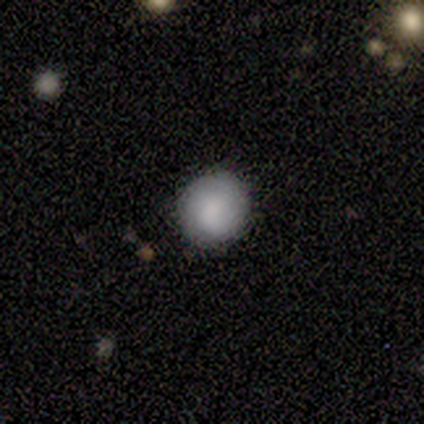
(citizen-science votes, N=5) Q: Smooth or featured?
A: smooth (80%); runner-up: featured or disk (20%)
Q: How rounded?
A: round (100%)
Q: Merging?
A: none (80%); runner-up: minor disturbance (20%)